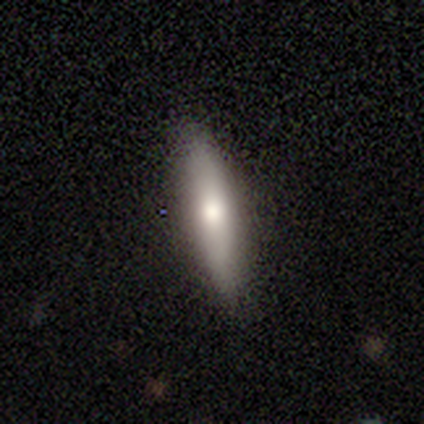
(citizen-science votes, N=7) A smooth galaxy with no disk features (57%) that is cigar-shaped (75%).

Vote fractions:
- Smooth or featured? smooth: 57% / featured or disk: 43% / star or artifact: 0%
- How rounded? cigar-shaped: 75% / in between: 25% / round: 0%
- Merging? none: 86% / minor disturbance: 14% / major disturbance: 0% / merger: 0%